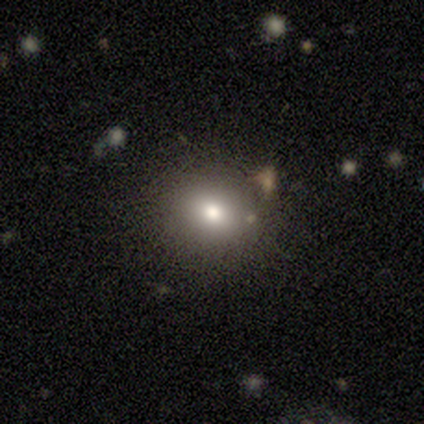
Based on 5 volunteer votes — smooth-or-featured: smooth: 60% | featured or disk: 20% | star or artifact: 20%
  how-rounded: round: 67% | in between: 33% | cigar-shaped: 0%
  merging: none: 100% | minor disturbance: 0% | major disturbance: 0% | merger: 0%